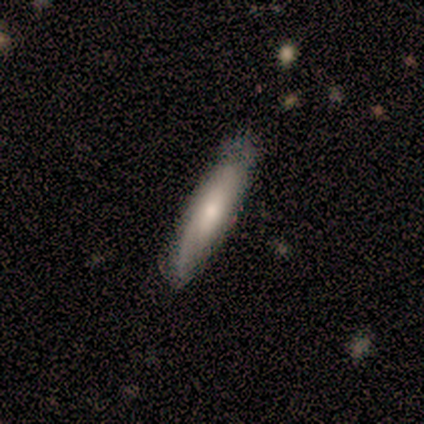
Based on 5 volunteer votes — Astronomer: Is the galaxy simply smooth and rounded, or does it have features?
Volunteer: smooth — 80%.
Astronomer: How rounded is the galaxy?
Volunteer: cigar-shaped — 100%.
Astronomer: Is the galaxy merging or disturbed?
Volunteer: none — 100%.